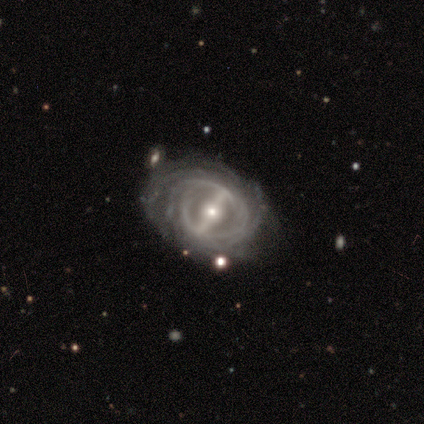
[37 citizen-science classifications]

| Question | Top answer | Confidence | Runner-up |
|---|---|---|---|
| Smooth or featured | featured or disk | 97% | smooth (3%) |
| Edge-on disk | no | 94% | yes (6%) |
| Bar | strong | 94% | weak (6%) |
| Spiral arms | yes | 88% | no (12%) |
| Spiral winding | tight | 67% | medium (27%) |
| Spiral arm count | can't tell | 53% | more than 4 (20%) |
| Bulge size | moderate | 59% | small (29%) |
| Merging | none | 76% | minor disturbance (19%) |